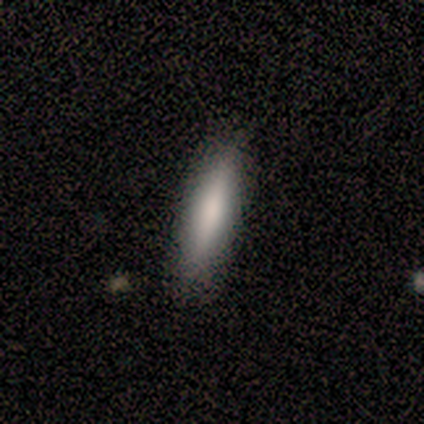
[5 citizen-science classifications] This appears to be a smooth galaxy with no disk features (100%) that is cigar-shaped (80%). Merging: none (80%).